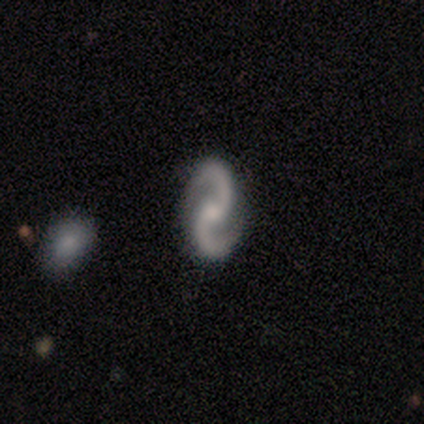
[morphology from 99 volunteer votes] Q: Smooth or featured?
A: featured or disk (92%); runner-up: star or artifact (6%)
Q: Edge-on disk?
A: no (99%); runner-up: yes (1%)
Q: Bar?
A: no (59%); runner-up: weak (29%)
Q: Spiral arms?
A: yes (100%)
Q: Spiral winding?
A: medium (49%); runner-up: loose (44%)
Q: Spiral arm count?
A: 2 (100%)
Q: Bulge size?
A: small (48%); runner-up: moderate (39%)
Q: Merging?
A: none (95%); runner-up: minor disturbance (5%)